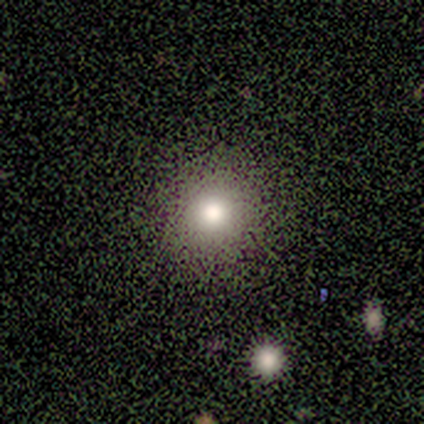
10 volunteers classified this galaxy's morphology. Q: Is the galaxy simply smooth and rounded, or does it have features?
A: smooth — 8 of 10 (80%).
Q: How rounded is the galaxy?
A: round — 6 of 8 (75%).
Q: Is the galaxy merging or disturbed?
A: none — 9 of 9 (100%).